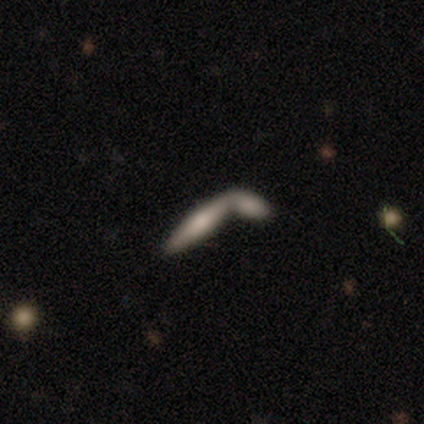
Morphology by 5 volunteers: Q: Smooth or featured?
A: smooth (80%); runner-up: featured or disk (20%)
Q: How rounded?
A: cigar-shaped (100%)
Q: Merging?
A: none (60%); runner-up: merger (40%)